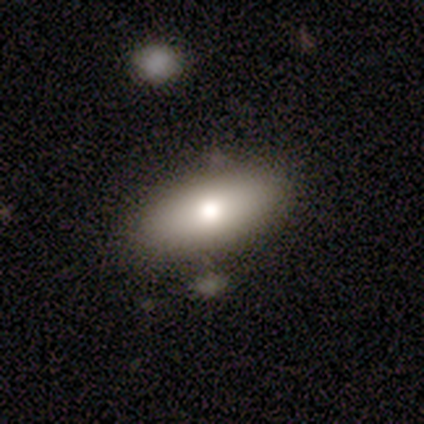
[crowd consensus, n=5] Smooth or featured? smooth (80%)
How rounded? in between (100%)
Merging? none (80%)